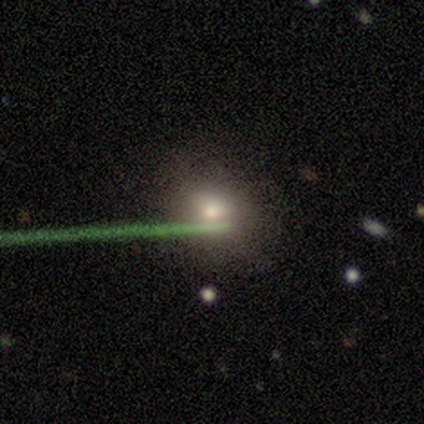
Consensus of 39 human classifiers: Smooth or featured? smooth (69%)
How rounded? round (70%)
Merging? none (76%)